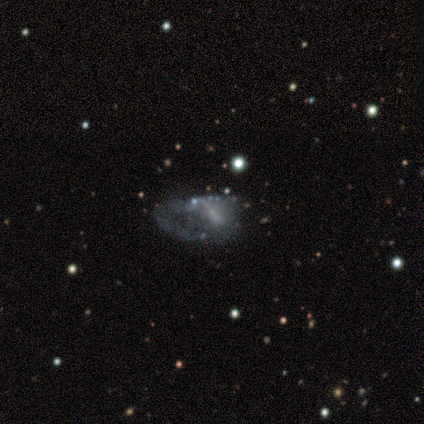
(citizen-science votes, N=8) Overall: smooth (50%, tied with featured or disk). How rounded: in between (100%). Merging: none (38%, tied with major disturbance).